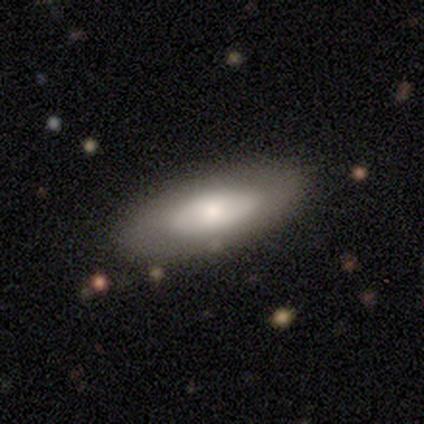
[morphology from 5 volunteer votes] Overall: featured or disk (60%; smooth 40%). Edge-on disk: no (100%). Bar: no (100%). Spiral arms: no (100%). Bulge size: moderate (67%; dominant 33%). Merging: none (80%).